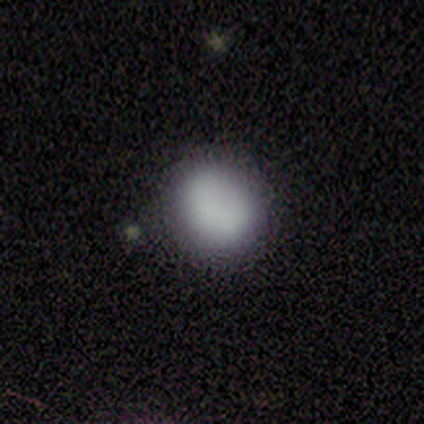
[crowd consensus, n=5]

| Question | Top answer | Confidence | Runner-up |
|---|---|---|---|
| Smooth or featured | smooth | 100% | — |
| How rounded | round | 60% | in between (40%) |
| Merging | none | 60% | minor disturbance (40%) |